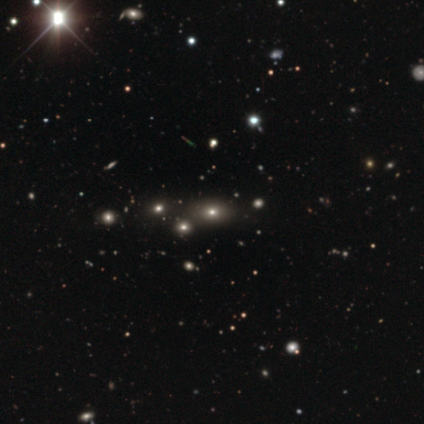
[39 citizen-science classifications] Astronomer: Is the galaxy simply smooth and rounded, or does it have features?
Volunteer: smooth — 49% (runner-up: star or artifact, 46%).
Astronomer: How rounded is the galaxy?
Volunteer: in between — 58% (runner-up: round, 42%).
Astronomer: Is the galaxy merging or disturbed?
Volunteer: none — 81%.